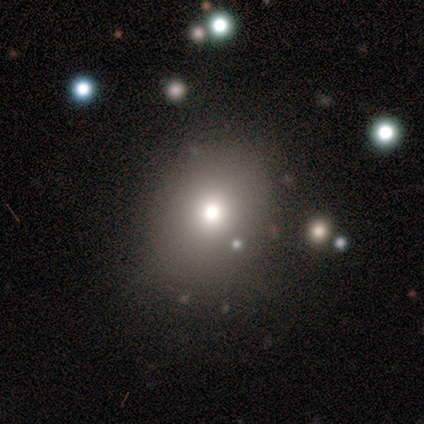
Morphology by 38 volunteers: type=smooth (82%); roundness=round (58%); merging=none (67%).